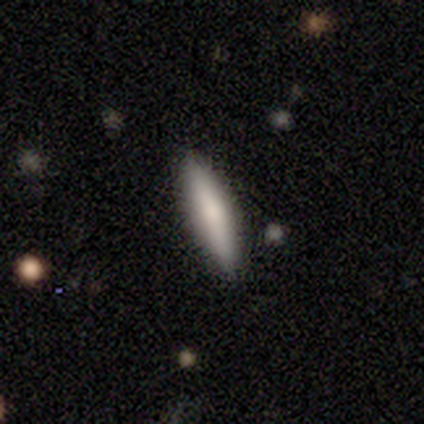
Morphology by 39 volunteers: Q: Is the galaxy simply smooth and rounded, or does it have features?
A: smooth — 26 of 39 (67%).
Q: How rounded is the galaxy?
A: cigar-shaped — 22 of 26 (85%).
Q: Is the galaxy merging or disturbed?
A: none — 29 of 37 (78%).